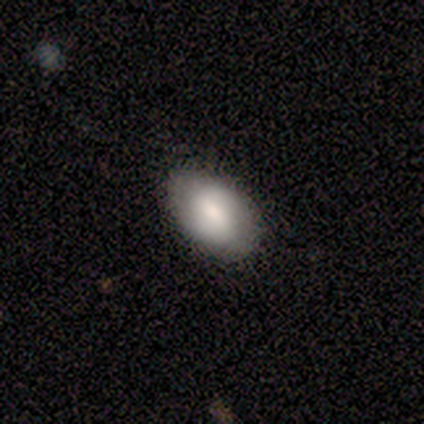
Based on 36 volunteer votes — This appears to be a smooth galaxy with no disk features (81%) that is in between round and cigar-shaped (90%). Merging: none (83%).